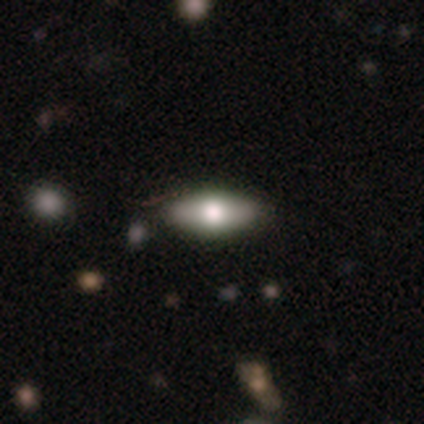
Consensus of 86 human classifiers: A smooth galaxy with no disk features (60%) that is in between round and cigar-shaped (85%).

Vote fractions:
- Smooth or featured? smooth: 60% / featured or disk: 37% / star or artifact: 2%
- How rounded? in between: 85% / cigar-shaped: 15% / round: 0%
- Merging? none: 86% / minor disturbance: 12% / major disturbance: 2% / merger: 0%